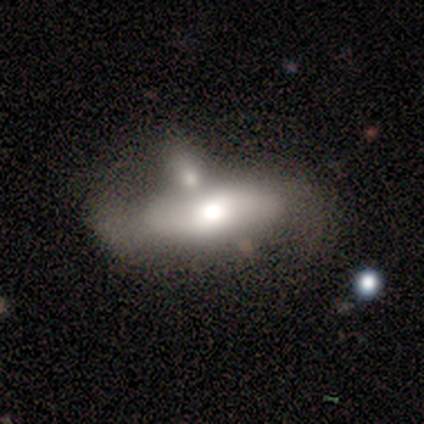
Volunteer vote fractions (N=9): smooth_or_featured: smooth (p=0.56) [alt: featured or disk p=0.44]
how_rounded: in between (p=0.80) [alt: cigar-shaped p=0.20]
merging: merger (p=0.56) [alt: major disturbance p=0.22]